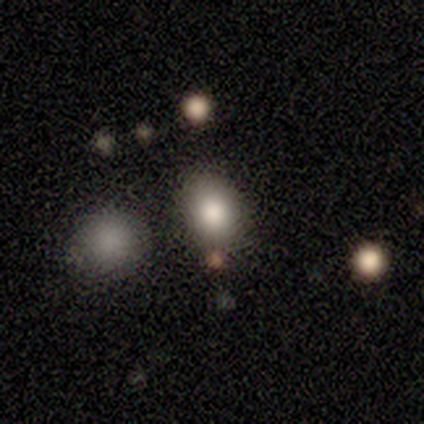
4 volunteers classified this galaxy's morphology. Smooth or featured: smooth — 75% (star or artifact — 25%)
How rounded: round — 67% (in between — 33%)
Merging: none — 100%